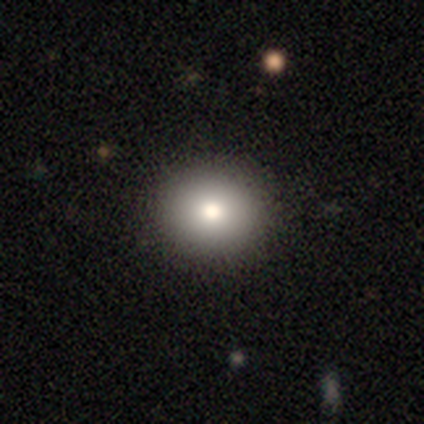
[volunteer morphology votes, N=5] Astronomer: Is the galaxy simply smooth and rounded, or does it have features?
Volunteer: smooth — 60%.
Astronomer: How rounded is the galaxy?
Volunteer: round — 67%.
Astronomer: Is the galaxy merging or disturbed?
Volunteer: none — 100%.